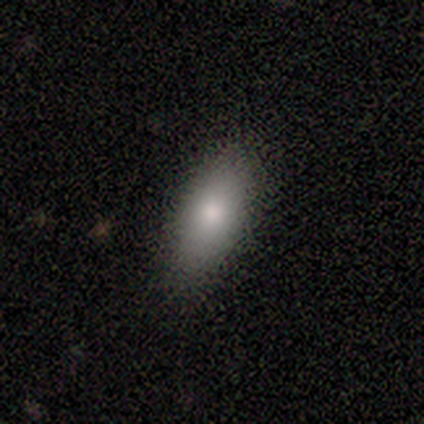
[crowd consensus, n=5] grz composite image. It shows a smooth galaxy with no disk features (80%) that is in between round and cigar-shaped (100%). Merging: none (100%).